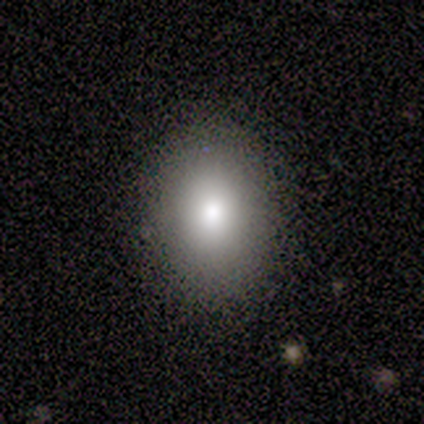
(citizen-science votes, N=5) Q: Smooth or featured?
A: smooth (100%)
Q: How rounded?
A: round (60%); runner-up: in between (40%)
Q: Merging?
A: none (100%)